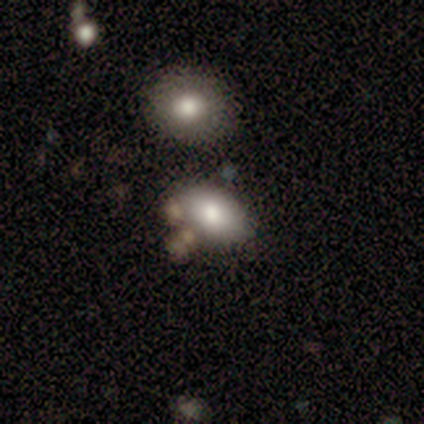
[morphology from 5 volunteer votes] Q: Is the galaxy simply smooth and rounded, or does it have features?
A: smooth — 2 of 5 (40%, tied with featured or disk).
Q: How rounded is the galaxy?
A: round — 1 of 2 (50%, tied with in between).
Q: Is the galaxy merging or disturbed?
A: minor disturbance — 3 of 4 (75%).